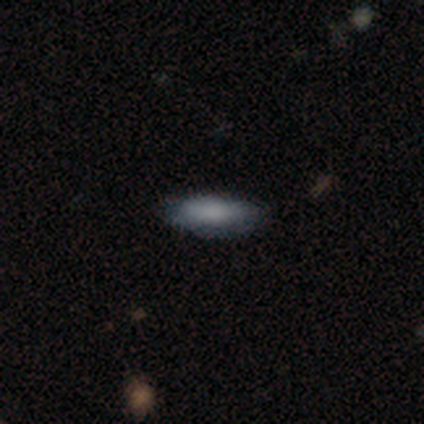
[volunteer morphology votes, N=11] smooth-or-featured: smooth: 82% | featured or disk: 9% | star or artifact: 9%
  how-rounded: in between: 56% | cigar-shaped: 44% | round: 0%
  merging: none: 80% | minor disturbance: 10% | major disturbance: 10% | merger: 0%